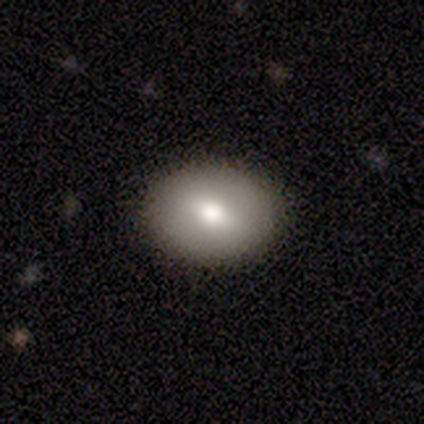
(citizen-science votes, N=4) smooth_or_featured: smooth (p=1.00)
how_rounded: in between (p=1.00)
merging: none (p=0.50) [tied with: minor disturbance p=0.50]